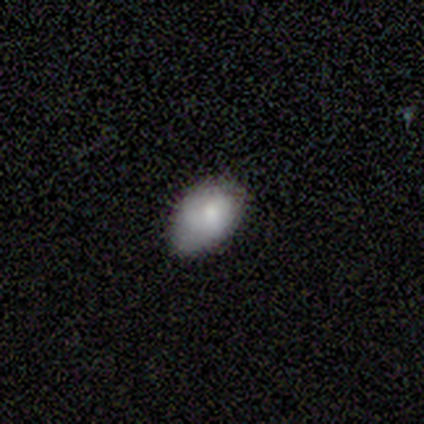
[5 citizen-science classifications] Overall: smooth (100%). How rounded: in between (100%). Merging: minor disturbance (60%; none 40%).